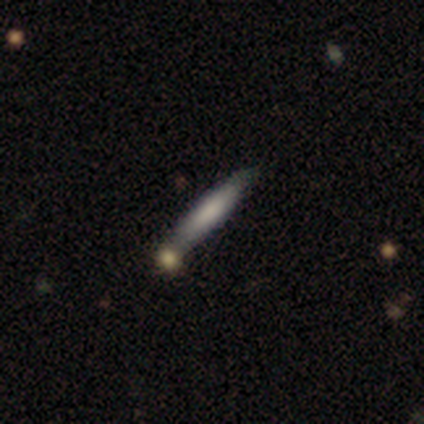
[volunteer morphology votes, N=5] Smooth or featured?
  - smooth: 60% *
  - featured or disk: 40%
  - star or artifact: 0%
How rounded?
  - cigar-shaped: 100% *
  - round: 0%
  - in between: 0%
Merging?
  - none: 80% *
  - minor disturbance: 20%
  - major disturbance: 0%
  - merger: 0%